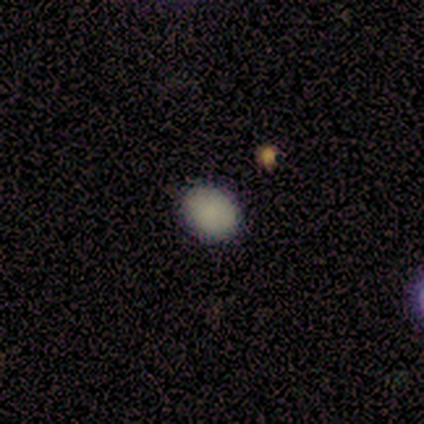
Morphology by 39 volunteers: type=smooth (97%); roundness=round (61%); merging=none (89%).